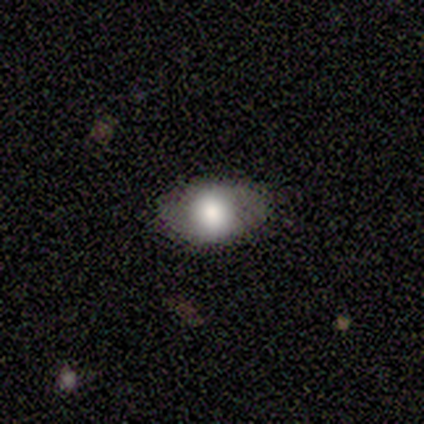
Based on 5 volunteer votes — Volunteers were most divided on "how rounded" (2-way tie): round: 50%, in between: 50%, cigar-shaped: 0%. More confident: merging — none (100%); smooth or featured — smooth (80%).